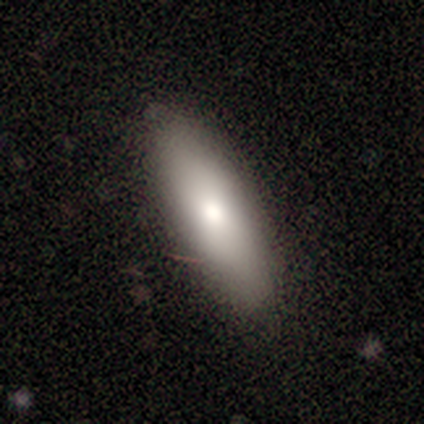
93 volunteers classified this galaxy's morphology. This is likely a smooth galaxy (76%). How rounded: possibly in between (55%). Merging: clearly none (81%).